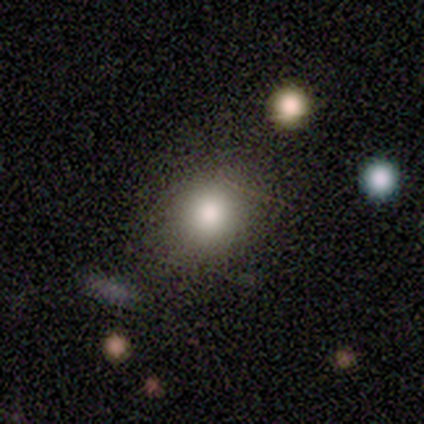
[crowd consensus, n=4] Morphology: type=smooth (75%); roundness=in between (67%); merging=none (75%).